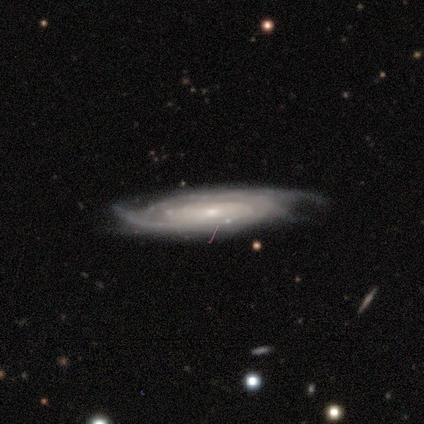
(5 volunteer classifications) This is clearly a featured or disk galaxy (80%). It is possibly viewed edge-on (50%, tied with no). Edge-on bulge: clearly rounded (100%). Merging: likely none (75%).